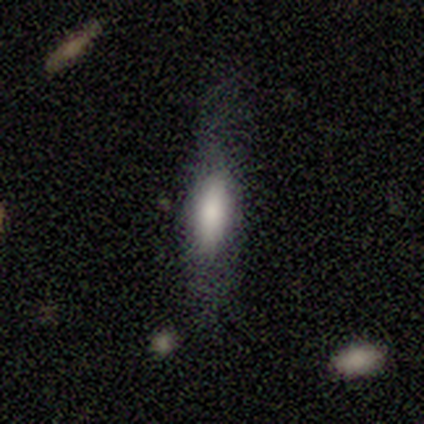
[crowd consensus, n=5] This is clearly a smooth galaxy (80%). How rounded: likely cigar-shaped (75%). Merging: marginally none (40%, tied with minor disturbance).